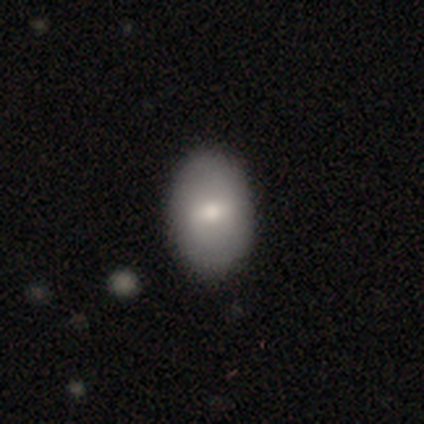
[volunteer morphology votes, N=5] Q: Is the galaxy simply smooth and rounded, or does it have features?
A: smooth — 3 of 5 (60%).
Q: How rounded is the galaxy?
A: in between — 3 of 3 (100%).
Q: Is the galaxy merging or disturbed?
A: none — 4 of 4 (100%).